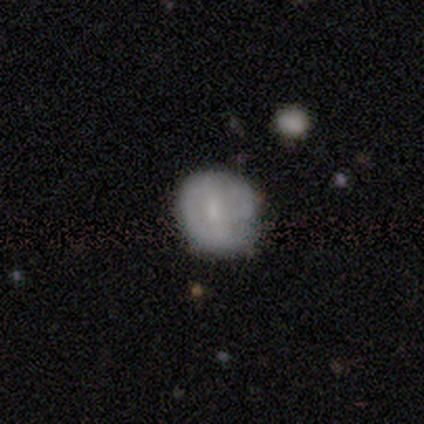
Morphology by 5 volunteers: Smooth or featured? featured or disk (60%)
Edge-on disk? no (100%)
Bar? weak (100%)
Spiral arms? yes (67%)
Spiral winding? tight (50%, tied with loose)
Spiral arm count? 1 (50%, tied with can't tell)
Bulge size? small (67%)
Merging? major disturbance (60%)